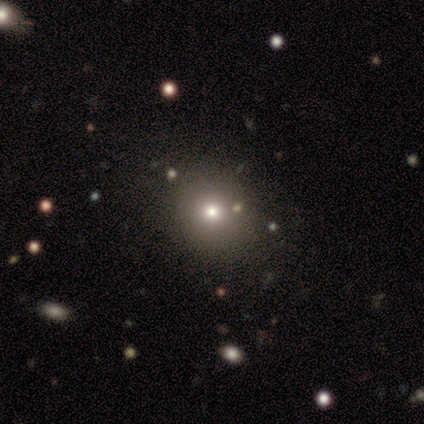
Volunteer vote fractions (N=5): A smooth galaxy with no disk features (60%) that is round (67%).

Vote fractions:
- Smooth or featured? smooth: 60% / star or artifact: 40% / featured or disk: 0%
- How rounded? round: 67% / in between: 33% / cigar-shaped: 0%
- Merging? none: 100% / minor disturbance: 0% / major disturbance: 0% / merger: 0%